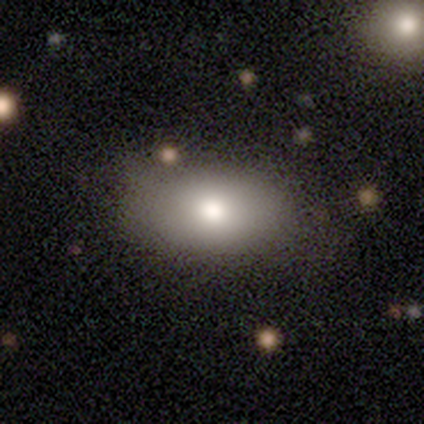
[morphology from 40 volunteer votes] This appears to be a smooth galaxy with no disk features (82%) that is in between round and cigar-shaped (91%). Merging: none (62%).